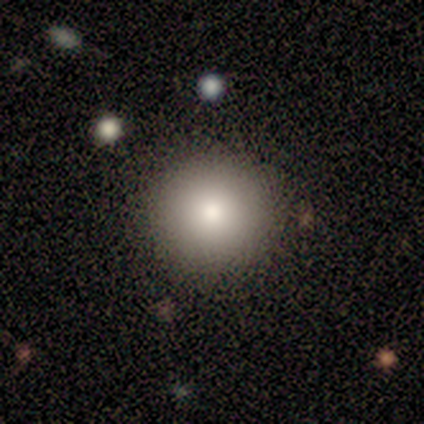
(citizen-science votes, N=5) smooth 80%, featured or disk 20%, star or artifact 0%. Down the decision tree: how rounded — round (100%); merging — none (80%).